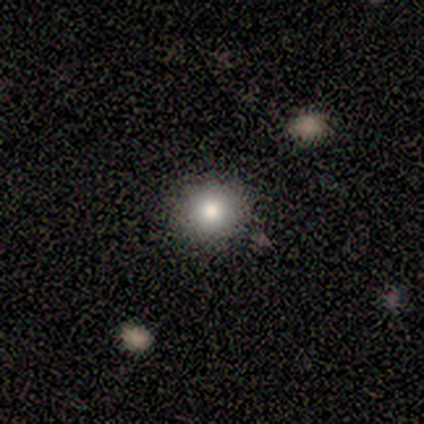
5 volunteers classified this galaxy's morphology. Volunteers were most divided on "smooth or featured": smooth: 60%, featured or disk: 20%, star or artifact: 20%. More confident: how rounded — round (100%); merging — none (100%).